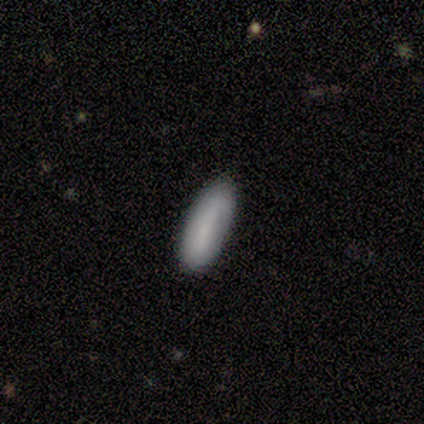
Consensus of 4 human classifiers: Morphology: type=featured or disk (50%); edge-on=yes (50%, tied with no); edge-on bulge=none (100%); merging=minor disturbance (67%).